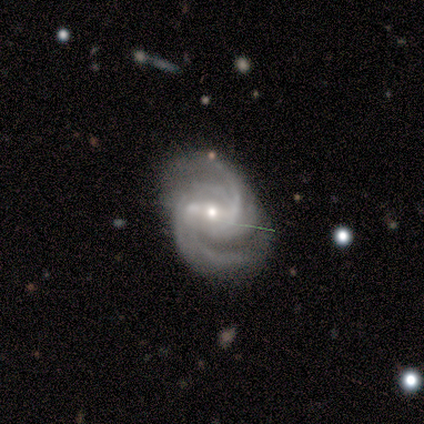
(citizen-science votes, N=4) featured or disk 100%, smooth 0%, star or artifact 0%. Down the decision tree: edge-on disk — no (100%); bar — weak (50%); spiral arms — yes (100%); spiral arm count — 2 (25%, tied with 3, 4 and can't tell); spiral winding — medium (100%); bulge size — small (75%); merging — none (75%).